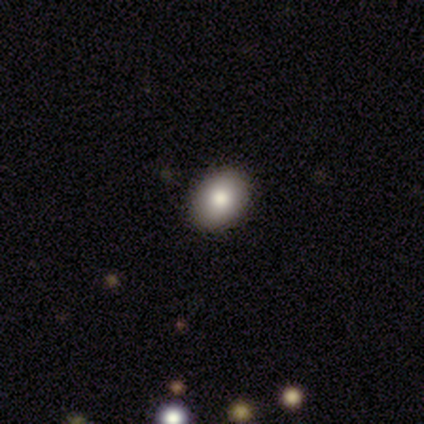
smooth_or_featured: smooth (p=0.60) [alt: featured or disk p=0.40]
how_rounded: in between (p=1.00)
merging: none (p=1.00)